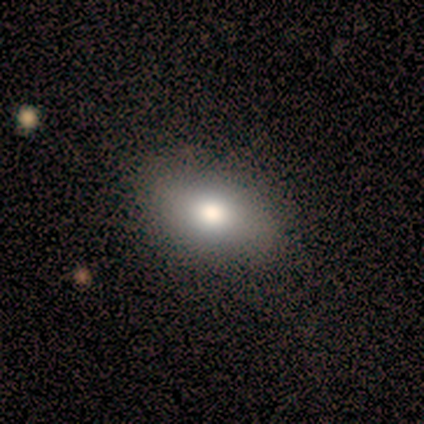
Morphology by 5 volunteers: A smooth galaxy with no disk features (100%) that is round (60%). Merging: none (100%).